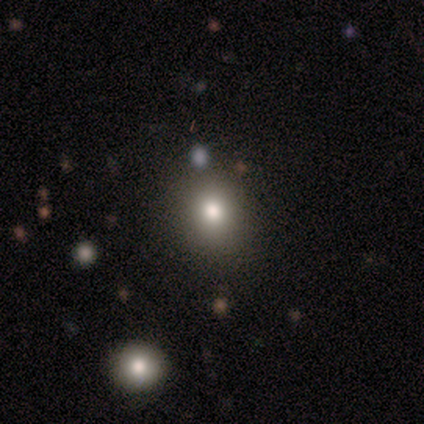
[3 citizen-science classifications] smooth_or_featured: smooth (p=0.67) [alt: featured or disk p=0.33]
how_rounded: round (p=1.00)
merging: none (p=0.67) [alt: minor disturbance p=0.33]